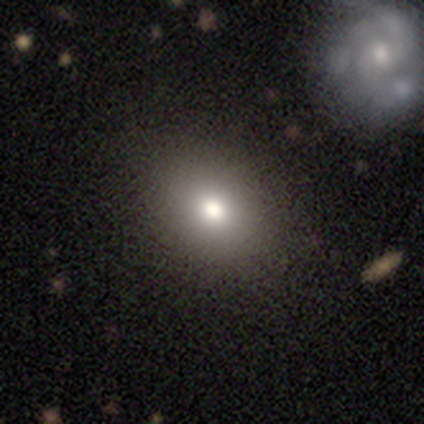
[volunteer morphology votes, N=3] type=smooth (67%); roundness=round (50%, tied with in between); merging=none (100%).